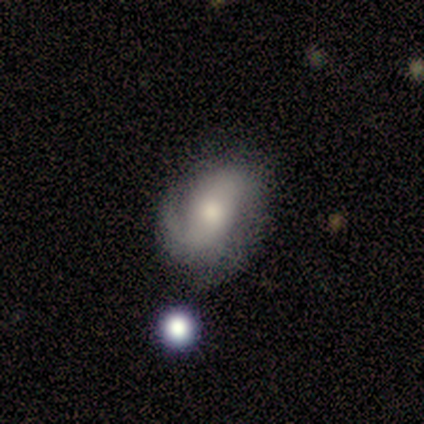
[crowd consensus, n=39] This is likely a featured or disk galaxy (64%). It is clearly not viewed edge-on (100%). Bar: marginally weak (40%, tied with no). Spiral arm pattern: clearly yes (84%). Spiral arm count: possibly 1 (52%). Spiral winding: possibly tight (48%). Central bulge: possibly moderate (56%). Merging: possibly none (56%).